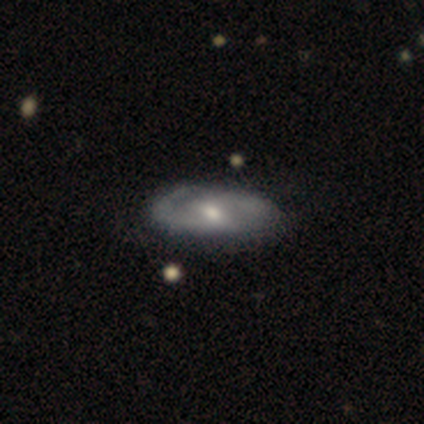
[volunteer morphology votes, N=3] Smooth or featured? 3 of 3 (100%) said featured or disk. Edge-on disk? 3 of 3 (100%) said no. Bar? 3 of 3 (100%) said weak. Spiral arms? 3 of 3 (100%) said yes. Spiral winding? 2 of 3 (67%) said medium. Spiral arm count? 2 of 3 (67%) said 2. Bulge size? 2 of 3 (67%) said moderate. Merging? 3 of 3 (100%) said none.